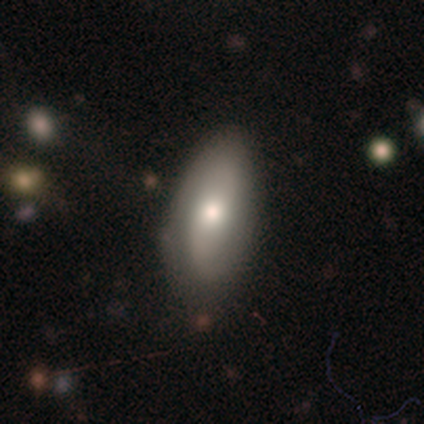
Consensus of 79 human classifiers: smooth_or_featured: smooth (p=0.66) [alt: featured or disk p=0.30]
how_rounded: in between (p=0.87) [alt: cigar-shaped p=0.12]
merging: none (p=0.34) [alt: minor disturbance p=0.16]